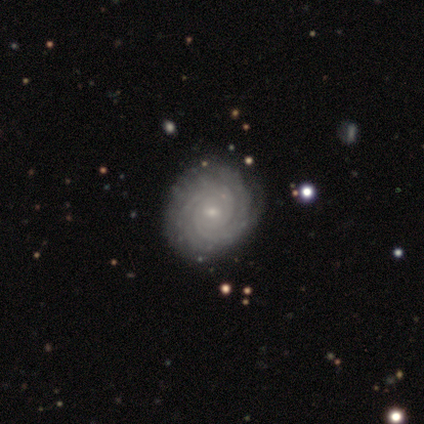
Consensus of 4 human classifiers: This appears to be a featured or disk galaxy (100%) with no bar (50%), more than 4 (50%) tight (75%) spiral arms (100%) and a small central bulge (100%). Merging: none (75%).